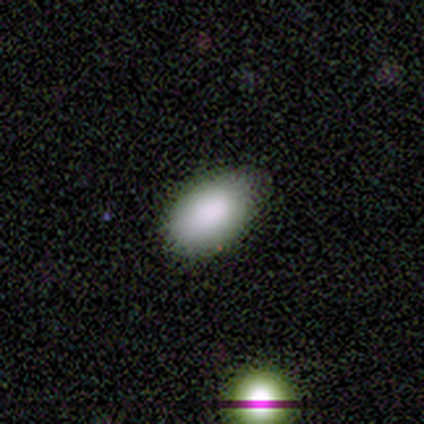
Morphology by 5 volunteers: Overall: smooth (100%). How rounded: in between (80%). Merging: none (60%; minor disturbance 40%).